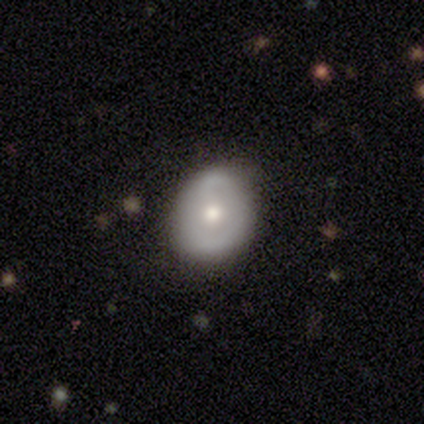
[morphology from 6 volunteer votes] Smooth or featured: featured or disk — 67% (smooth — 33%)
Edge-on disk: no — 100%
Bar: no — 75% (strong — 25%)
Spiral arms: no — 75% (yes — 25%)
Bulge size: moderate — 100%
Merging: minor disturbance — 50% (none — 33%)